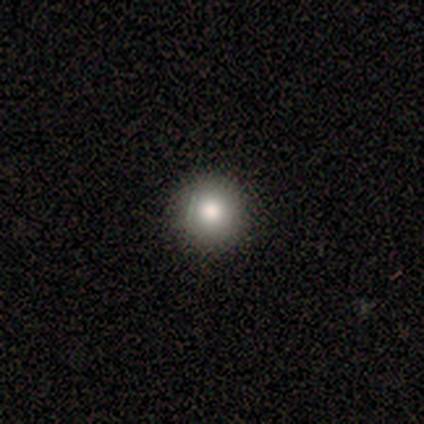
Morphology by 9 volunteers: type=smooth (67%); roundness=round (100%); merging=none (100%).